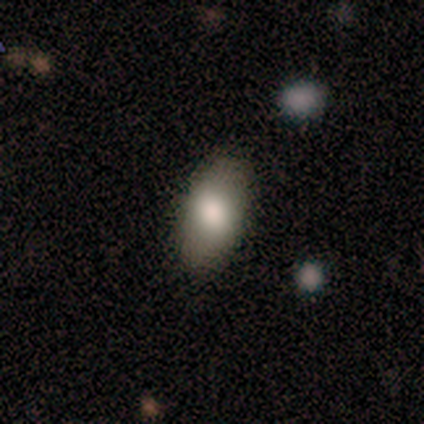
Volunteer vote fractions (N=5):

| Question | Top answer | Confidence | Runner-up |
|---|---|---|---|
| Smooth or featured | smooth | 100% | — |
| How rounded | in between | 100% | — |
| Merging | none | 80% | minor disturbance (20%) |